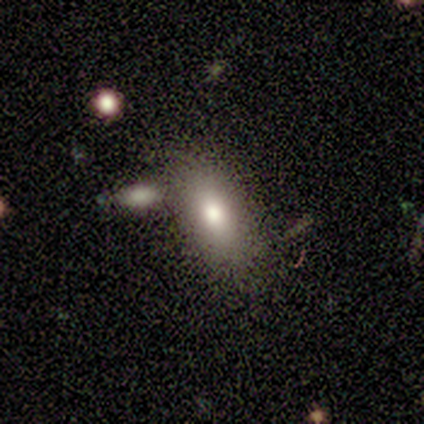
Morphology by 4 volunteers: Overall: smooth (100%). How rounded: in between (75%). Merging: none (75%).